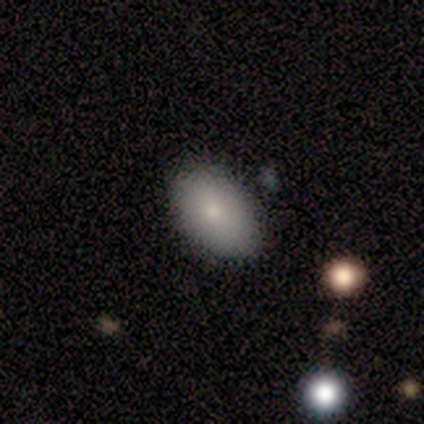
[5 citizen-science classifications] smooth-or-featured: smooth: 100% | featured or disk: 0% | star or artifact: 0%
  how-rounded: in between: 80% | round: 20% | cigar-shaped: 0%
  merging: none: 40% (tied) | minor disturbance: 40% (tied) | major disturbance: 20% | merger: 0%